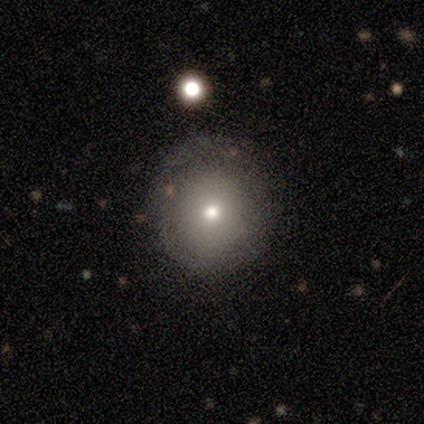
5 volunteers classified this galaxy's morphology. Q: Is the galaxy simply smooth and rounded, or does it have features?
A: smooth — 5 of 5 (100%).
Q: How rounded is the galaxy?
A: round — 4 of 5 (80%).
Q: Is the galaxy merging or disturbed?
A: none — 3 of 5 (60%).